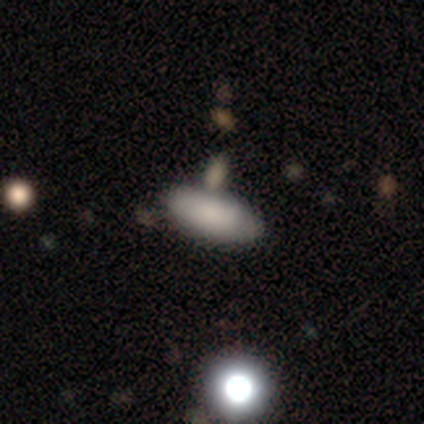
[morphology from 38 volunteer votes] smooth_or_featured: smooth (p=0.82) [alt: featured or disk p=0.13]
how_rounded: in between (p=0.71) [alt: cigar-shaped p=0.29]
merging: none (p=0.64) [alt: merger p=0.25]